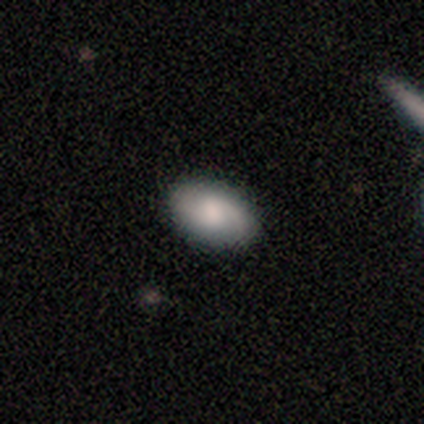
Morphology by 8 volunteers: smooth-or-featured: smooth: 62% | featured or disk: 38% | star or artifact: 0%
  how-rounded: in between: 100% | round: 0% | cigar-shaped: 0%
  merging: none: 100% | minor disturbance: 0% | major disturbance: 0% | merger: 0%